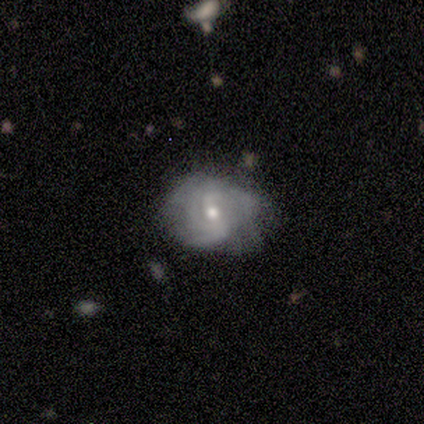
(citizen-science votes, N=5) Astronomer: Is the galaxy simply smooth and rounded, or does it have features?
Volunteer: featured or disk — 100%.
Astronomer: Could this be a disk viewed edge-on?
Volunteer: no — 100%.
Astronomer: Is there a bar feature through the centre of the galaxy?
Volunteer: weak — 40%, tied with no at 40%.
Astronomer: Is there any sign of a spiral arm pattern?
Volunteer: yes — 100%.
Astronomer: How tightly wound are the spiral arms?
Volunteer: tight — 60% (runner-up: medium, 40%).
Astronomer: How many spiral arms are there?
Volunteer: can't tell — 40% (runner-up: 2, 20%).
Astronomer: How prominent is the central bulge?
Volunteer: moderate — 60% (runner-up: small, 40%).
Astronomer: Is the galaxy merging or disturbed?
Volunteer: major disturbance — 60% (runner-up: minor disturbance, 40%).